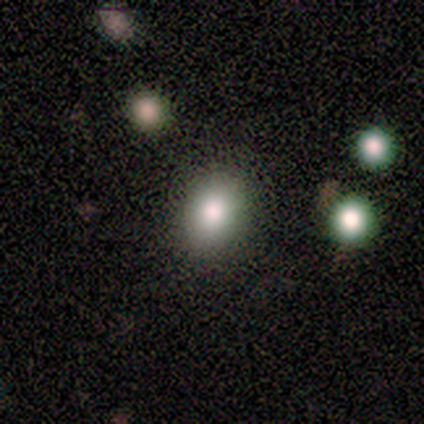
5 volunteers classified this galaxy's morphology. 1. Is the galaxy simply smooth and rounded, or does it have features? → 80% smooth, 20% star or artifact, 0% featured or disk.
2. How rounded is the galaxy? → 75% in between, 25% round, 0% cigar-shaped.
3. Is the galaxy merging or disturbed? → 75% none, 25% minor disturbance, 0% major disturbance, 0% merger.